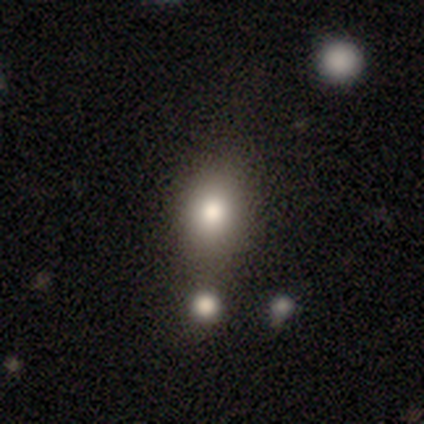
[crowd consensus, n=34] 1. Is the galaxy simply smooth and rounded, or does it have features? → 76% smooth, 18% star or artifact, 6% featured or disk.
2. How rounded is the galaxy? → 54% round, 46% in between, 0% cigar-shaped.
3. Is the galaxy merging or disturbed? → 46% none, 25% merger, 21% minor disturbance, 7% major disturbance.